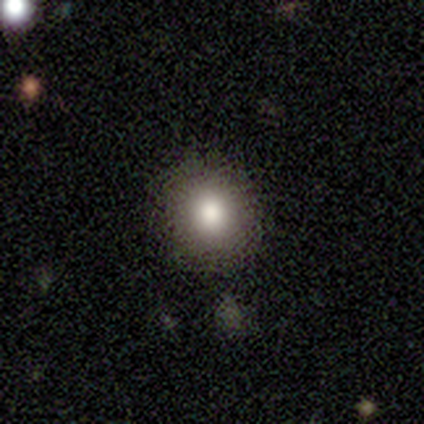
This is likely a smooth galaxy (67%). How rounded: clearly round (100%). Merging: clearly none (86%).